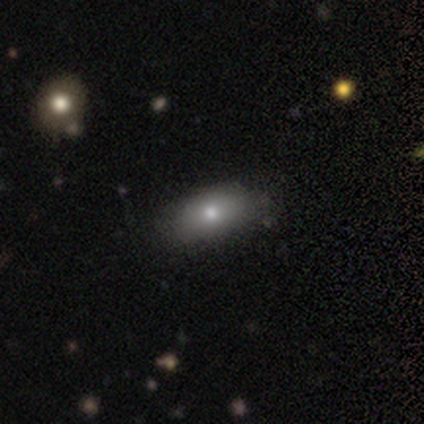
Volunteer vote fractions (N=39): This appears to be a smooth galaxy with no disk features (62%) that is in between round and cigar-shaped (96%). Merging: none (79%).